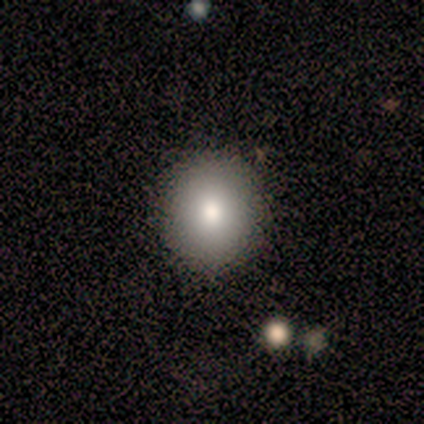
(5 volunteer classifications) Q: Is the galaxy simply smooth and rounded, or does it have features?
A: smooth — 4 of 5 (80%).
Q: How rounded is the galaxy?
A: round — 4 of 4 (100%).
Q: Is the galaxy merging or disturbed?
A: none — 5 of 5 (100%).